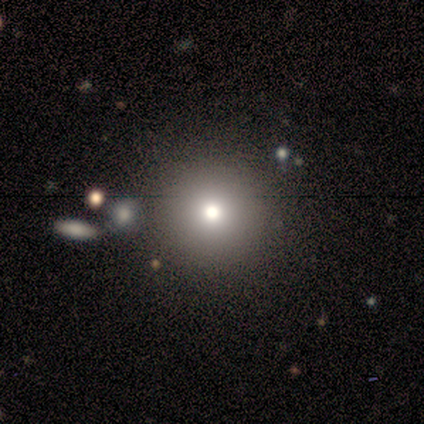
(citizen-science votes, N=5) Morphology: type=smooth (60%); roundness=round (100%); merging=none (75%).